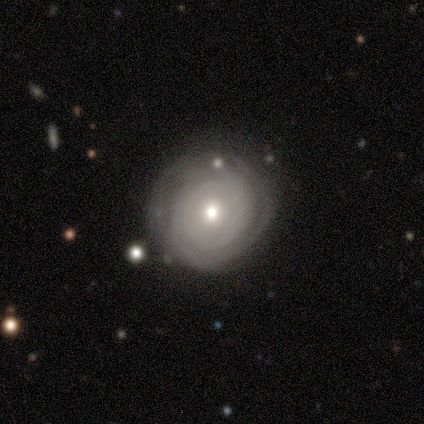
Morphology: type=smooth (60%); roundness=round (100%); merging=none (60%).